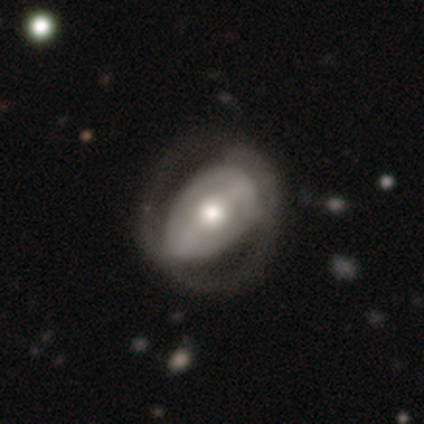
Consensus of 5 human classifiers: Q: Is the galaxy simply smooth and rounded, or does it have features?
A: featured or disk — 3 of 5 (60%).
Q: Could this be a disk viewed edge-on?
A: no — 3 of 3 (100%).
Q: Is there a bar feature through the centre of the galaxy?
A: no — 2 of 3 (67%).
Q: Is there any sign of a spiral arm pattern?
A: yes — 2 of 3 (67%).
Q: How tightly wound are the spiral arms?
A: medium — 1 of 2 (50%, tied with loose).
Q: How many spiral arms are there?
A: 2 — 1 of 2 (50%, tied with can't tell).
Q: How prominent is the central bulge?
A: moderate — 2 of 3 (67%).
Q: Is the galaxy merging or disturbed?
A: none — 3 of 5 (60%).